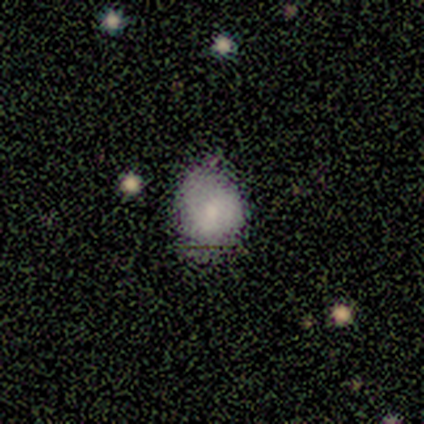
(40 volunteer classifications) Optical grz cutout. It shows a smooth galaxy with no disk features (72%) that is round (79%). Merging: minor disturbance (51%).